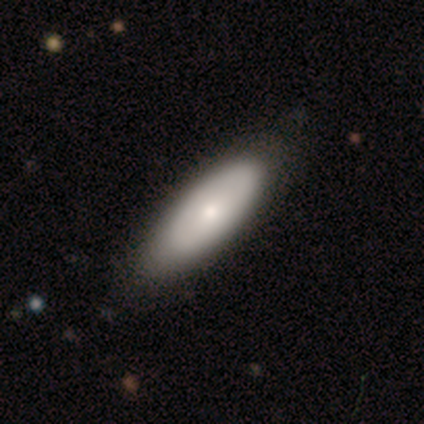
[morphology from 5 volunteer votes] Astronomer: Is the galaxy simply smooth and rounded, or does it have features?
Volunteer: smooth — 60%.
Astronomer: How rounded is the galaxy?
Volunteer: in between — 67%.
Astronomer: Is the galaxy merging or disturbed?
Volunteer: none — 100%.